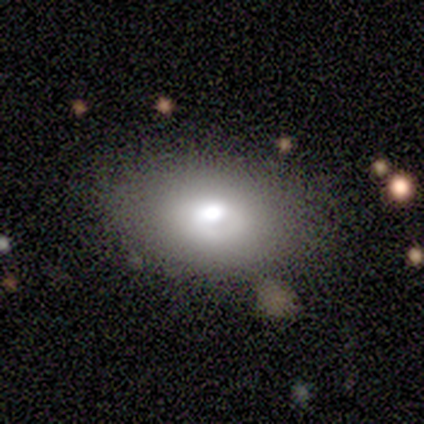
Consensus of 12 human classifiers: smooth_or_featured: smooth (p=0.75) [alt: featured or disk p=0.25]
how_rounded: in between (p=0.78) [alt: round p=0.22]
merging: none (p=0.92) [alt: minor disturbance p=0.08]